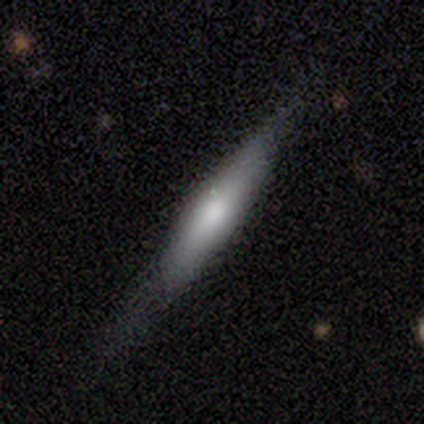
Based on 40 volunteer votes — smooth_or_featured: smooth (p=0.53) [alt: featured or disk p=0.45]
how_rounded: cigar-shaped (p=0.95) [alt: in between p=0.05]
merging: none (p=0.59) [alt: minor disturbance p=0.21]